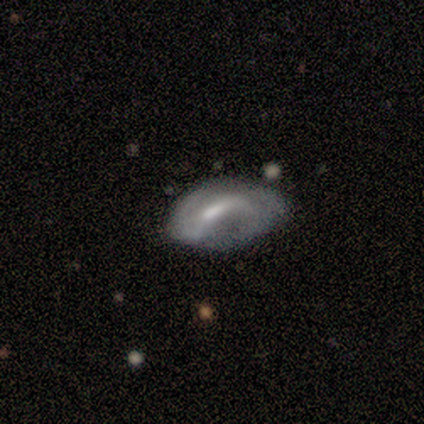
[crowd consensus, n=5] Q: Smooth or featured?
A: featured or disk (80%); runner-up: smooth (20%)
Q: Edge-on disk?
A: no (100%)
Q: Bar?
A: weak (75%); runner-up: strong (25%)
Q: Spiral arms?
A: yes (75%); runner-up: no (25%)
Q: Spiral winding?
A: loose (100%)
Q: Spiral arm count?
A: 2 (67%); runner-up: can't tell (33%)
Q: Bulge size?
A: moderate (50%); runner-up: small (25%)
Q: Merging?
A: major disturbance (40%); runner-up: none (20%)